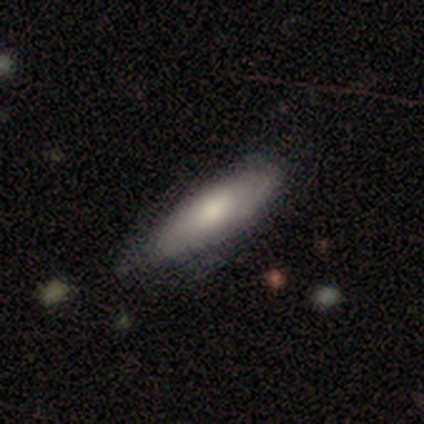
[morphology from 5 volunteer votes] A smooth galaxy with no disk features (60%) that is cigar-shaped (67%).

Vote fractions:
- Smooth or featured? smooth: 60% / featured or disk: 40% / star or artifact: 0%
- How rounded? cigar-shaped: 67% / in between: 33% / round: 0%
- Merging? none: 100% / minor disturbance: 0% / major disturbance: 0% / merger: 0%